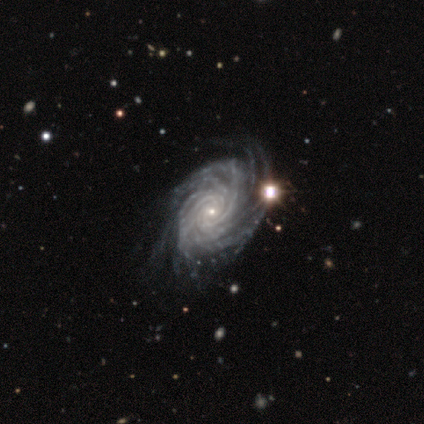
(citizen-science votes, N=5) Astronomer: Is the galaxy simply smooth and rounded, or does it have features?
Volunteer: featured or disk — 80%.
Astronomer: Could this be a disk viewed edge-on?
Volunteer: no — 100%.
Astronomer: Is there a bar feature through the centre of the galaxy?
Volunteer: no — 75%.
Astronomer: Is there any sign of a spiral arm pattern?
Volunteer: yes — 100%.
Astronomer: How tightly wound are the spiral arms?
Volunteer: tight — 50%, tied with medium at 50%.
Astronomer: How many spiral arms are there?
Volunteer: more than 4 — 100%.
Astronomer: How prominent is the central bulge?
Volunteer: small — 75%.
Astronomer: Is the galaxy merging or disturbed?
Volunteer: none — 50%, tied with minor disturbance at 50%.